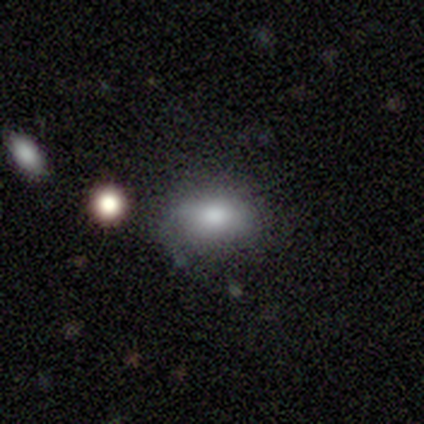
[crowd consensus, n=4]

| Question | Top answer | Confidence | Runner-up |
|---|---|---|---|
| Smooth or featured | smooth | 75% | featured or disk (25%) |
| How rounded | in between | 100% | — |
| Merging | none | 100% | — |